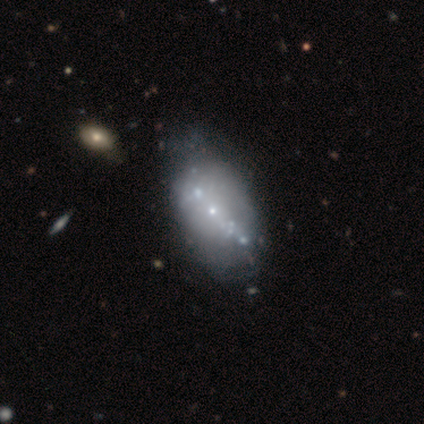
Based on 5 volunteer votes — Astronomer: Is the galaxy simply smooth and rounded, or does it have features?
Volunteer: featured or disk — 80%.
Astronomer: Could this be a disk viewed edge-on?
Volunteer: no — 100%.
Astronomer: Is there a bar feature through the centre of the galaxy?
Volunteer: no — 75%.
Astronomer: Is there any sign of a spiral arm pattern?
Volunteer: no — 75%.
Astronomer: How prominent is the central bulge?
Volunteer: small — 100%.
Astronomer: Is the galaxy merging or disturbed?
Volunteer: none — 75%.